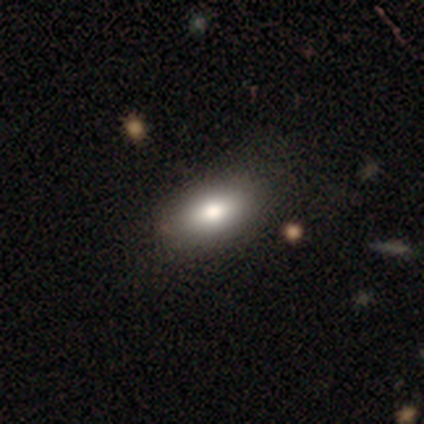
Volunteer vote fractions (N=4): smooth-or-featured: smooth: 75% | star or artifact: 25% | featured or disk: 0%
  how-rounded: in between: 67% | cigar-shaped: 33% | round: 0%
  merging: none: 100% | minor disturbance: 0% | major disturbance: 0% | merger: 0%